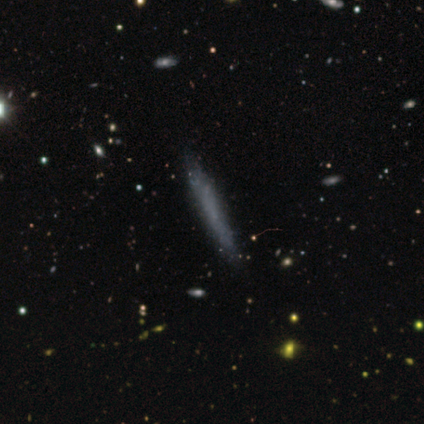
Smooth or featured?
  - smooth: 50% * (tied)
  - featured or disk: 50% * (tied)
  - star or artifact: 0%
How rounded?
  - cigar-shaped: 100% *
  - round: 0%
  - in between: 0%
Merging?
  - none: 100% *
  - minor disturbance: 0%
  - major disturbance: 0%
  - merger: 0%